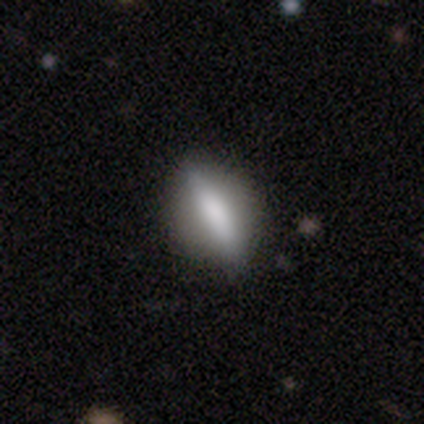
smooth_or_featured: featured or disk (p=0.60) [alt: smooth p=0.40]
disk_edge_on: no (p=1.00)
bar: no (p=0.67) [alt: strong p=0.33]
has_spiral_arms: no (p=1.00)
bulge_size: dominant (p=0.33) [tied with: large p=0.33, none p=0.33]
merging: none (p=0.80) [alt: major disturbance p=0.20]